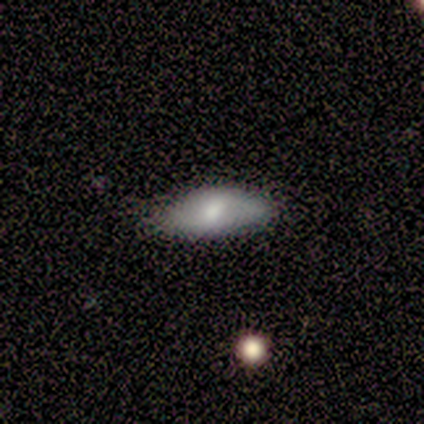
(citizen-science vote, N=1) smooth-or-featured: featured or disk: 100% | smooth: 0% | star or artifact: 0%
  disk-edge-on: no: 100% | yes: 0%
    bar: no: 100% | strong: 0% | weak: 0%
    has-spiral-arms: yes: 100% | no: 0%
      spiral-winding: medium: 100% | tight: 0% | loose: 0%
      spiral-arm-count: 2: 100% | 1: 0% | 3: 0% | 4: 0% | more than 4: 0% | can't tell: 0%
    bulge-size: none: 100% | dominant: 0% | large: 0% | moderate: 0% | small: 0%
  merging: none: 100% | minor disturbance: 0% | major disturbance: 0% | merger: 0%